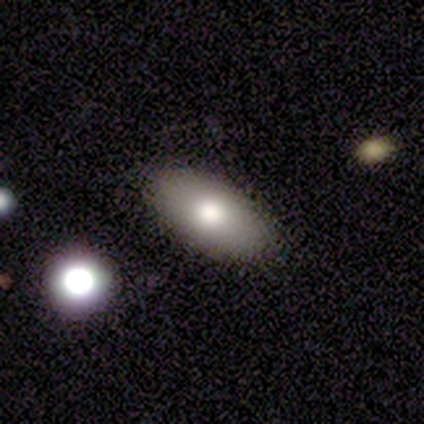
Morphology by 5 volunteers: smooth-or-featured: smooth: 80% | featured or disk: 20% | star or artifact: 0%
  how-rounded: in between: 75% | round: 25% | cigar-shaped: 0%
  merging: none: 80% | major disturbance: 20% | minor disturbance: 0% | merger: 0%